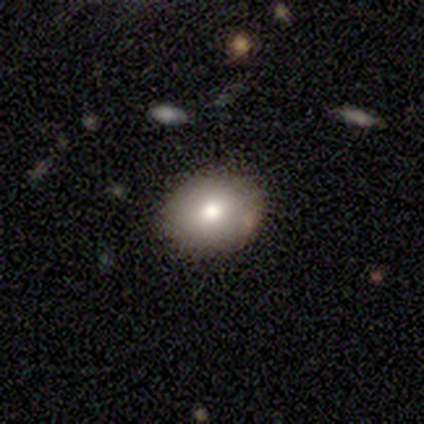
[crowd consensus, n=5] smooth_or_featured: smooth (p=0.80) [alt: star or artifact p=0.20]
how_rounded: round (p=0.50) [tied with: in between p=0.50]
merging: none (p=0.75) [alt: minor disturbance p=0.25]